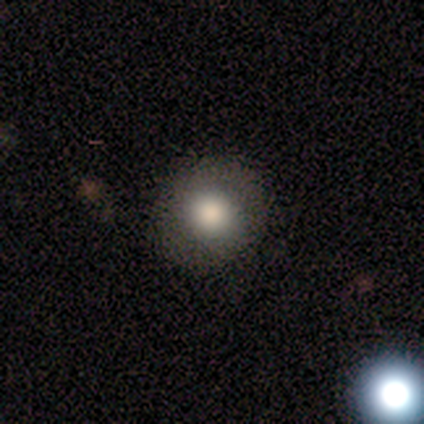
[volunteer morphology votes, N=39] Smooth or featured? 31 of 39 (79%) said smooth. How rounded? 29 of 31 (94%) said round. Merging? 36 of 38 (95%) said none.